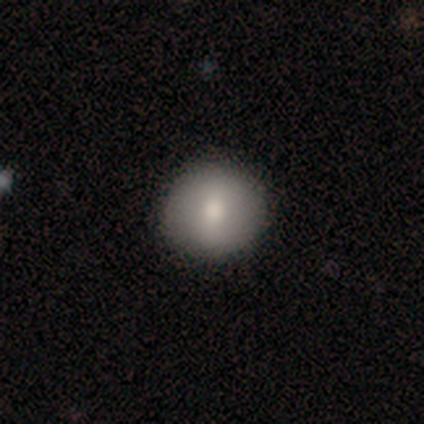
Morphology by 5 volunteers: smooth_or_featured: smooth (p=0.60) [alt: featured or disk p=0.40]
how_rounded: round (p=1.00)
merging: none (p=0.80) [alt: major disturbance p=0.20]